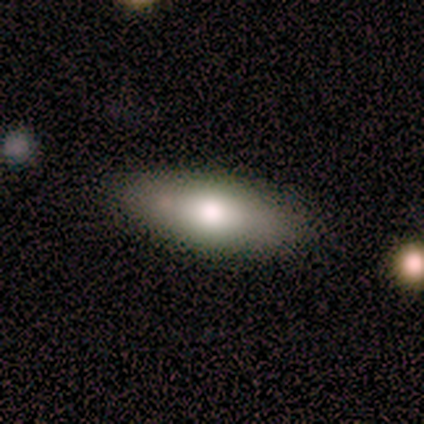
Volunteers were most divided on "smooth or featured": smooth: 60%, featured or disk: 40%, star or artifact: 0%. More confident: how rounded — in between (100%); merging — none (80%).